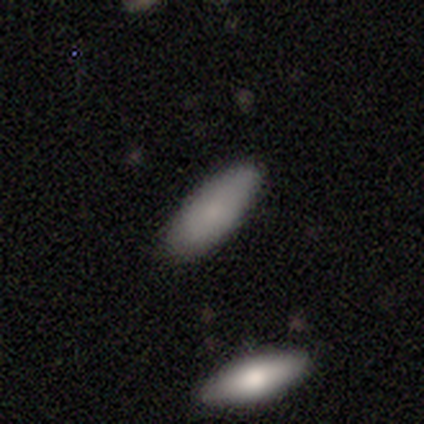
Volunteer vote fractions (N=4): Smooth or featured?
  - smooth: 100% *
  - featured or disk: 0%
  - star or artifact: 0%
How rounded?
  - in between: 100% *
  - round: 0%
  - cigar-shaped: 0%
Merging?
  - none: 75% *
  - minor disturbance: 25%
  - major disturbance: 0%
  - merger: 0%